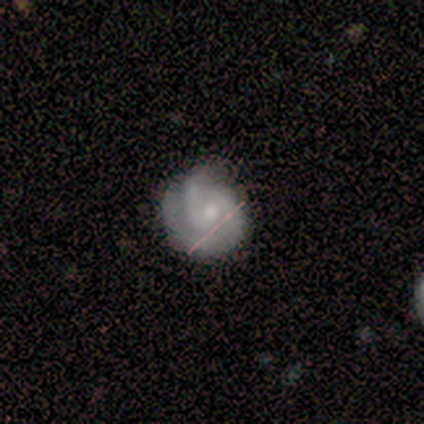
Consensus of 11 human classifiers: featured or disk 91%, smooth 9%, star or artifact 0%. Down the decision tree: edge-on disk — no (100%); bar — weak (70%); spiral arms — yes (100%); spiral arm count — 2 (90%); spiral winding — tight (70%); bulge size — small (80%); merging — none (73%).